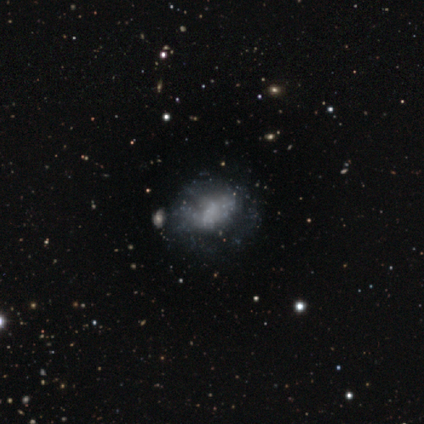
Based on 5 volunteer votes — This appears to be a featured or disk galaxy (80%) with no bar (100%), no spiral arms (75%) and no central bulge (75%). Merging: none (50%, tied with major disturbance).